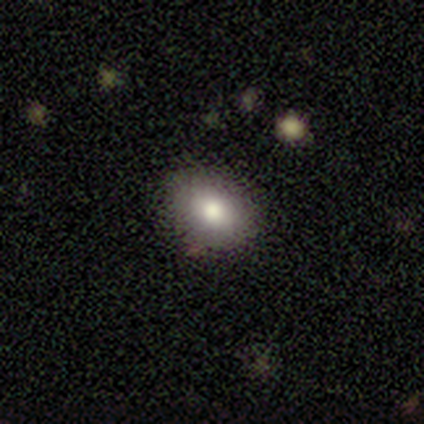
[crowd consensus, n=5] smooth 80%, star or artifact 20%, featured or disk 0%. Down the decision tree: how rounded — round (75%); merging — none (100%).